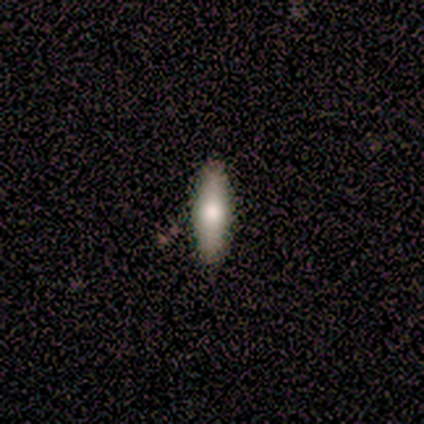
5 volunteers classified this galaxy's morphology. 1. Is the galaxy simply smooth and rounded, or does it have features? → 100% smooth, 0% featured or disk, 0% star or artifact.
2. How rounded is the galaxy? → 80% in between, 20% cigar-shaped, 0% round.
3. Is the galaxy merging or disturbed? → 100% none, 0% minor disturbance, 0% major disturbance, 0% merger.